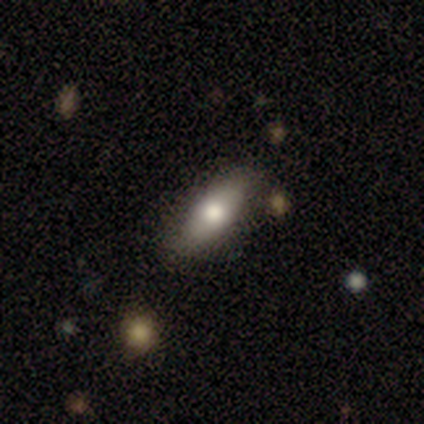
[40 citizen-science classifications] Smooth or featured?
  - smooth: 72% *
  - featured or disk: 20%
  - star or artifact: 8%
How rounded?
  - in between: 66% *
  - cigar-shaped: 34%
  - round: 0%
Merging?
  - none: 86% *
  - minor disturbance: 11%
  - major disturbance: 3%
  - merger: 0%